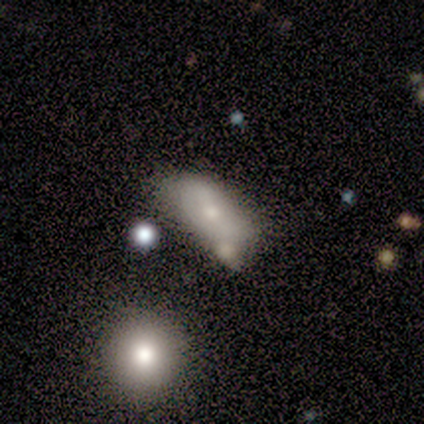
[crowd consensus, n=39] Volunteers were most divided on "merging": none: 39%, minor disturbance: 31%, merger: 28%, major disturbance: 3%. More confident: how rounded — in between (84%); smooth or featured — smooth (64%).